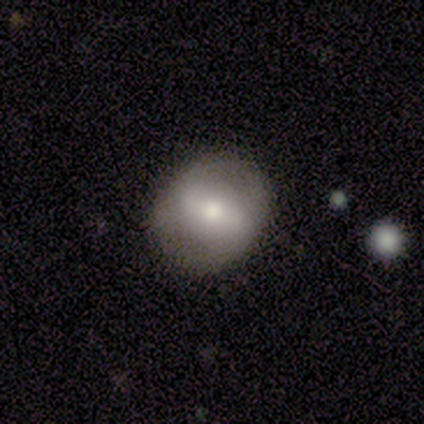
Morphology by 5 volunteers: smooth_or_featured: smooth (p=0.40) [tied with: featured or disk p=0.40]
how_rounded: round (p=0.50) [tied with: in between p=0.50]
merging: none (p=1.00)